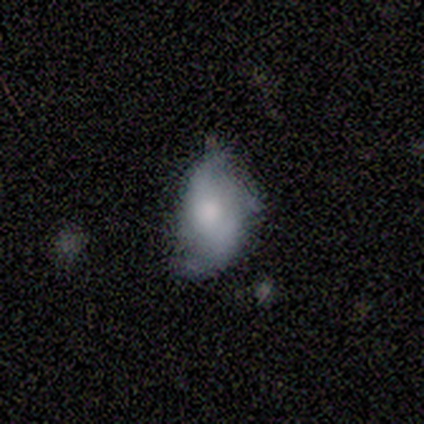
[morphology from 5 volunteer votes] smooth-or-featured: featured or disk: 80% | smooth: 20% | star or artifact: 0%
  disk-edge-on: no: 100% | yes: 0%
    bar: no: 75% | weak: 25% | strong: 0%
    has-spiral-arms: yes: 50% (tied) | no: 50% (tied)
      spiral-winding: medium: 50% (tied) | loose: 50% (tied) | tight: 0%
      spiral-arm-count: 2: 100% | 1: 0% | 3: 0% | 4: 0% | more than 4: 0% | can't tell: 0%
    bulge-size: moderate: 50% | large: 25% | none: 25% | dominant: 0% | small: 0%
  merging: none: 40% (tied) | minor disturbance: 40% (tied) | major disturbance: 20% | merger: 0%